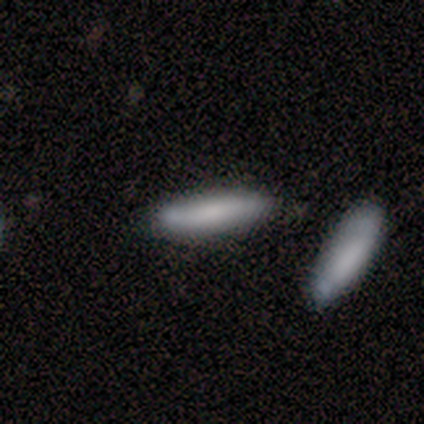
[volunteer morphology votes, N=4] This appears to be a smooth galaxy with no disk features (100%) that is in between round and cigar-shaped (50%, tied with cigar-shaped). Merging: none (75%).